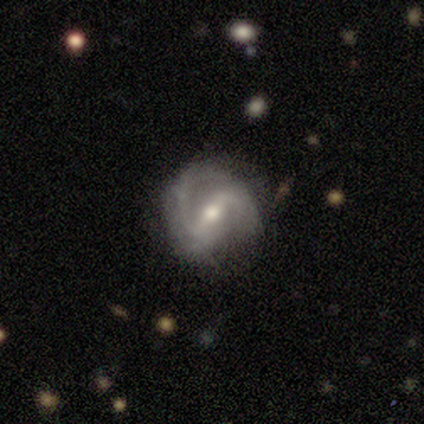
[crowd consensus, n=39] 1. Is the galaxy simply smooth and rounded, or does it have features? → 82% featured or disk, 10% star or artifact, 8% smooth.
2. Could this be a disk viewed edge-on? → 94% no, 6% yes.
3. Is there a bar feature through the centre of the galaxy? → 50% strong, 43% weak, 7% no.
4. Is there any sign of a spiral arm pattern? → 97% yes, 3% no.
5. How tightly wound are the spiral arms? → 69% medium, 21% loose, 10% tight.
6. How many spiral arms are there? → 76% 2, 10% 3, 7% 1, 7% can't tell, 0% 4, 0% more than 4.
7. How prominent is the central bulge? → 60% moderate, 40% small, 0% dominant, 0% large, 0% none.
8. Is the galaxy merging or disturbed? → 60% none, 20% minor disturbance, 14% major disturbance, 6% merger.